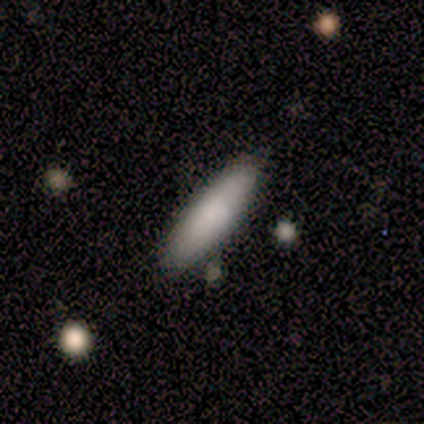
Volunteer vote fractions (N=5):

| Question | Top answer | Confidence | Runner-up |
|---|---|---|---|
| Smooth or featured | smooth | 100% | — |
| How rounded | cigar-shaped | 60% | in between (40%) |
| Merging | none | 80% | minor disturbance (20%) |